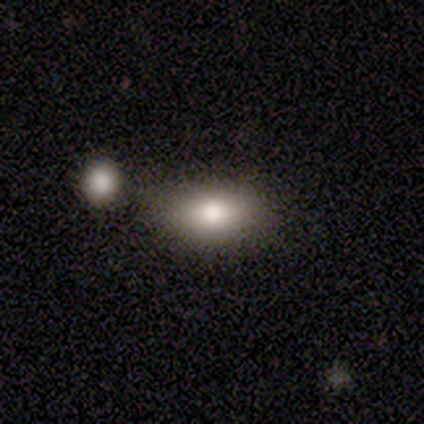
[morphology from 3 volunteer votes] Smooth or featured?
  - smooth: 100% *
  - featured or disk: 0%
  - star or artifact: 0%
How rounded?
  - in between: 67% *
  - round: 33%
  - cigar-shaped: 0%
Merging?
  - none: 33% * (tied)
  - minor disturbance: 33% * (tied)
  - merger: 33% * (tied)
  - major disturbance: 0%